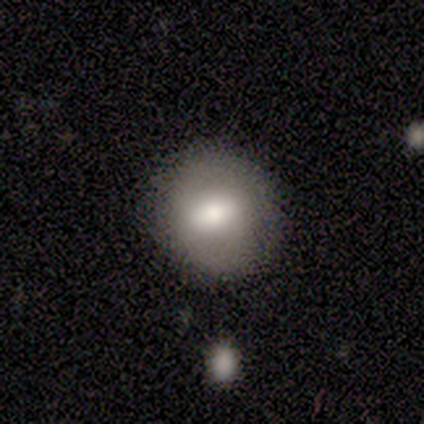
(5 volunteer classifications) Morphology: type=smooth (60%); roundness=round (100%); merging=none (75%).